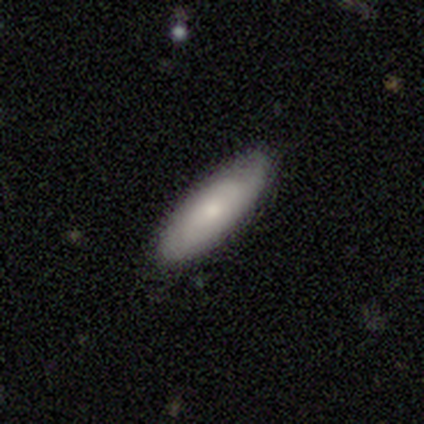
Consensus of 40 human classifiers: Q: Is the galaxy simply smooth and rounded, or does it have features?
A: smooth — 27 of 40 (68%).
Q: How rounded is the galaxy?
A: in between — 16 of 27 (59%).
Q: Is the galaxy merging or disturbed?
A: none — 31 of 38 (82%).